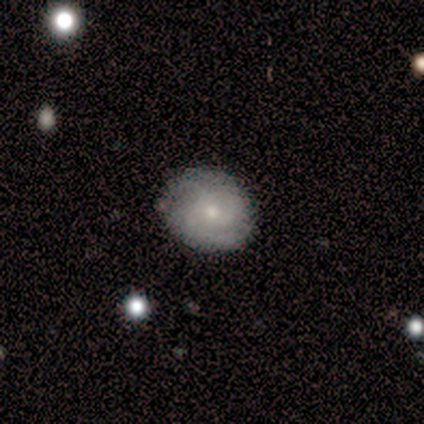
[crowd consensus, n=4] Smooth or featured?
  - featured or disk: 100% *
  - smooth: 0%
  - star or artifact: 0%
Edge-on disk?
  - no: 100% *
  - yes: 0%
Bar?
  - no: 100% *
  - strong: 0%
  - weak: 0%
Spiral arms?
  - yes: 75% *
  - no: 25%
Spiral winding?
  - tight: 67% *
  - medium: 33%
  - loose: 0%
Spiral arm count?
  - 2: 33% * (tied)
  - 3: 33% * (tied)
  - can't tell: 33% * (tied)
  - 1: 0%
  - 4: 0%
  - more than 4: 0%
Bulge size?
  - small: 100% *
  - dominant: 0%
  - large: 0%
  - moderate: 0%
  - none: 0%
Merging?
  - none: 100% *
  - minor disturbance: 0%
  - major disturbance: 0%
  - merger: 0%